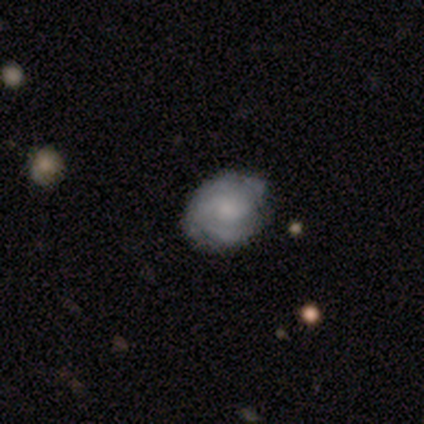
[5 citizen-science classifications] Smooth or featured? smooth (60%)
How rounded? round (100%)
Merging? none (60%)